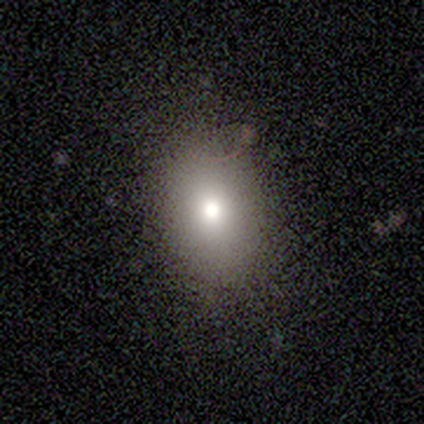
A smooth galaxy with no disk features (100%) that is in between round and cigar-shaped (100%). Merging: none (75%).